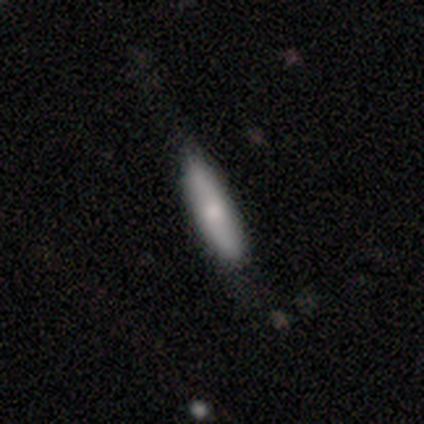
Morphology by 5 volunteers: Q: Smooth or featured?
A: smooth (60%); runner-up: featured or disk (20%)
Q: How rounded?
A: cigar-shaped (100%)
Q: Merging?
A: none (75%); runner-up: minor disturbance (25%)